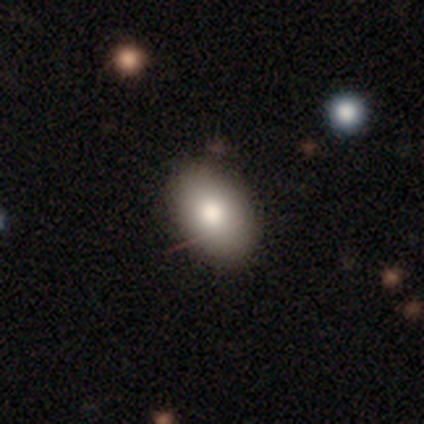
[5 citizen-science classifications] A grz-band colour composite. It shows a smooth galaxy with no disk features (80%) that is in between round and cigar-shaped (75%). Merging: none (100%).